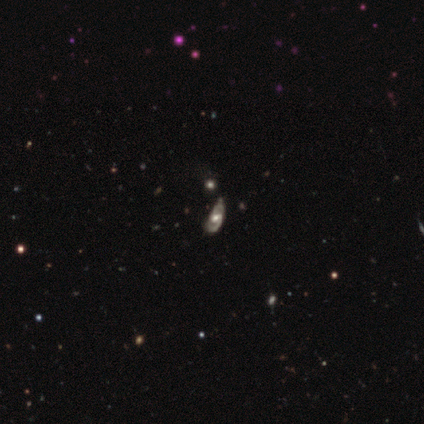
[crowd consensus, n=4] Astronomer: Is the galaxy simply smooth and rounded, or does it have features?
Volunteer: featured or disk — 75%.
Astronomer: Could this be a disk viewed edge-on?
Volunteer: no — 100%.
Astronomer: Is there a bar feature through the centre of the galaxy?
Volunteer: no — 67%.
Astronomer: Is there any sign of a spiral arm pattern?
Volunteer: yes — 67%.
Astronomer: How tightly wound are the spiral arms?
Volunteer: tight — 50%, tied with medium at 50%.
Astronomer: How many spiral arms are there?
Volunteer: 2 — 100%.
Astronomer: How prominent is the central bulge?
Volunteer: moderate — 67%.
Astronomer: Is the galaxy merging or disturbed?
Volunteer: minor disturbance — 50%.